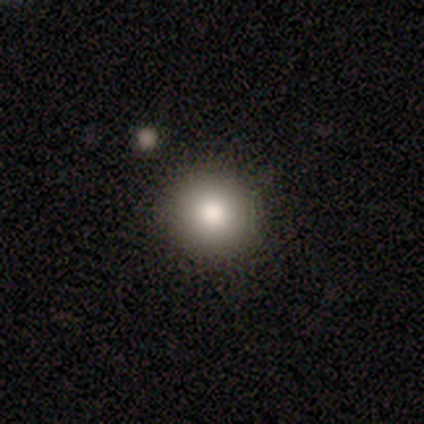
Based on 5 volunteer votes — Overall: smooth (100%). How rounded: round (100%). Merging: none (100%).